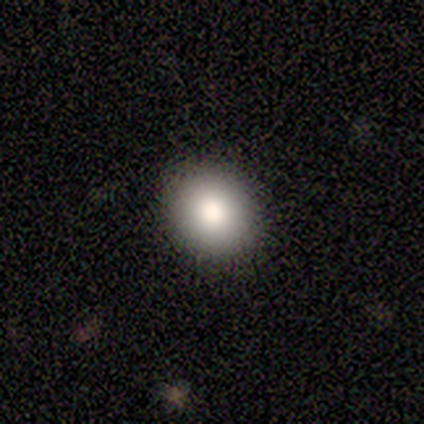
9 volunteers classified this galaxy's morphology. This is clearly a smooth galaxy (100%). How rounded: likely round (67%). Merging: clearly none (100%).